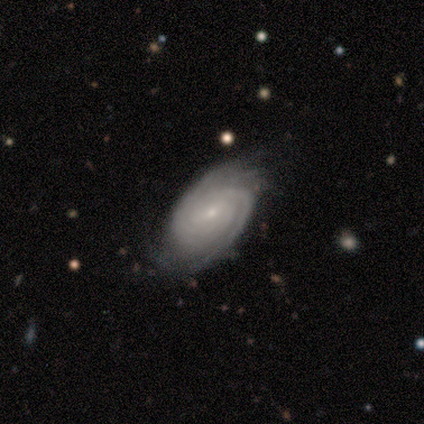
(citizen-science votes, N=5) Smooth or featured? 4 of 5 (80%) said featured or disk. Edge-on disk? 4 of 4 (100%) said no. Bar? 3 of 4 (75%) said no. Spiral arms? 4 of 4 (100%) said yes. Spiral winding? 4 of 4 (100%) said tight. Spiral arm count? 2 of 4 (50%, tied with can't tell) said 2. Bulge size? 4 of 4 (100%) said small. Merging? 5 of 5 (100%) said none.